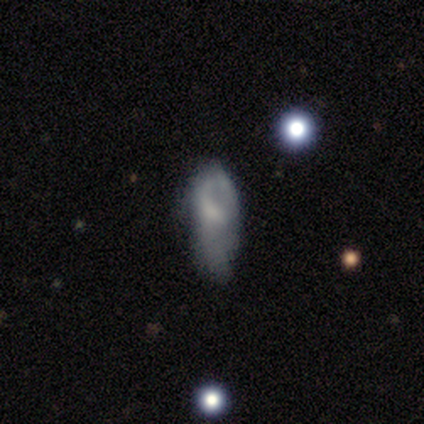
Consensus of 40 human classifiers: smooth_or_featured: smooth (p=0.55) [alt: featured or disk p=0.38]
how_rounded: in between (p=0.77) [alt: cigar-shaped p=0.23]
merging: minor disturbance (p=0.41) [alt: major disturbance p=0.32]